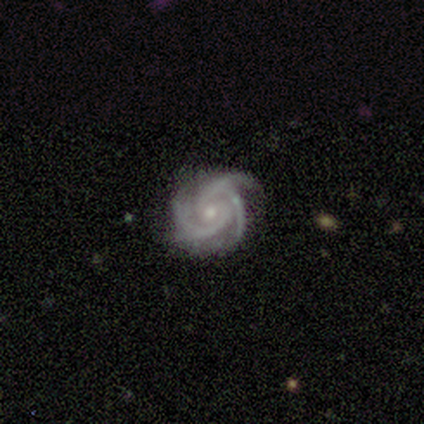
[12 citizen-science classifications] Overall: featured or disk (100%). Edge-on disk: no (100%). Bar: no (83%). Spiral arms: yes (100%). Spiral arm count: 3 (42%; 2 33%). Spiral winding: tight (58%; medium 42%). Bulge size: small (58%; moderate 42%). Merging: none (83%).